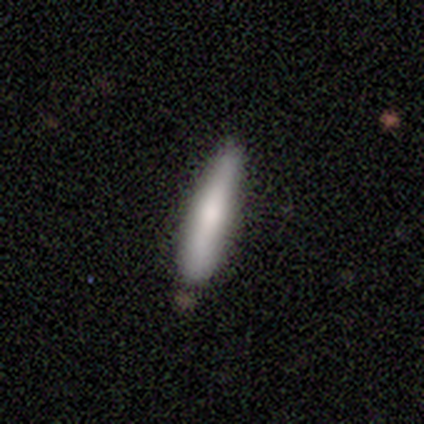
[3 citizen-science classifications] smooth 100%, featured or disk 0%, star or artifact 0%. Down the decision tree: how rounded — cigar-shaped (100%); merging — minor disturbance (67%).